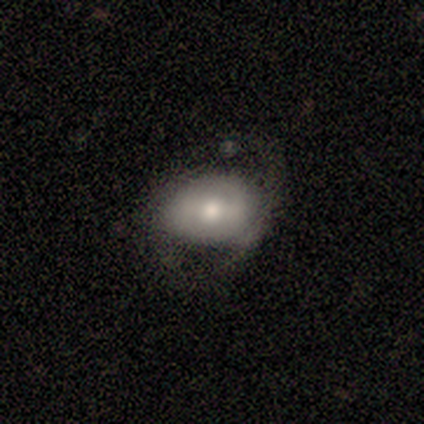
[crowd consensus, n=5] This is likely a smooth galaxy (60%). How rounded: marginally round (33%, tied with in between and cigar-shaped). Merging: marginally none (40%, tied with minor disturbance).